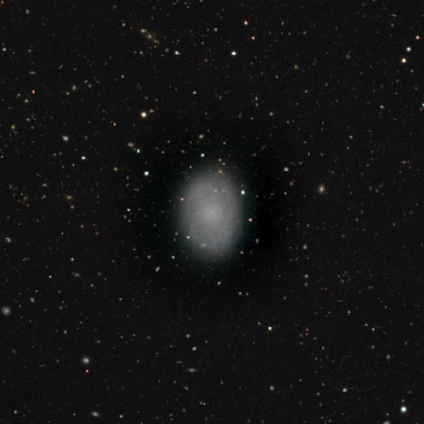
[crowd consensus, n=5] Overall: smooth (40%, tied with featured or disk). How rounded: in between (100%). Merging: none (75%).